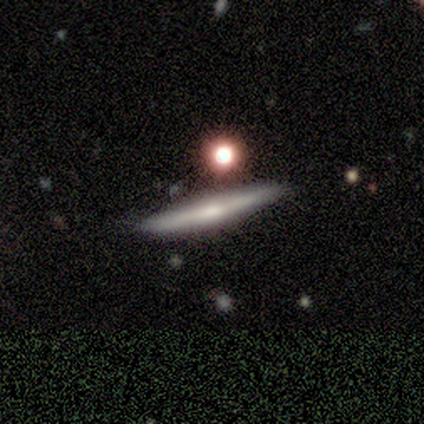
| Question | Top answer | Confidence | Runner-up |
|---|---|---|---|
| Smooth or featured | featured or disk | 70% | smooth (20%) |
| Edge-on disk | yes | 86% | no (14%) |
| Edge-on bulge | rounded | 83% | boxy (17%) |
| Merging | none | 56% | minor disturbance (33%) |